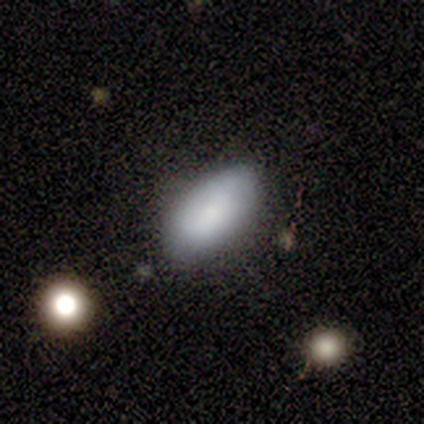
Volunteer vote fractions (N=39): smooth-or-featured: smooth: 82% | featured or disk: 15% | star or artifact: 3%
  how-rounded: in between: 88% | round: 6% | cigar-shaped: 6%
  merging: none: 68% | minor disturbance: 26% | merger: 5% | major disturbance: 0%